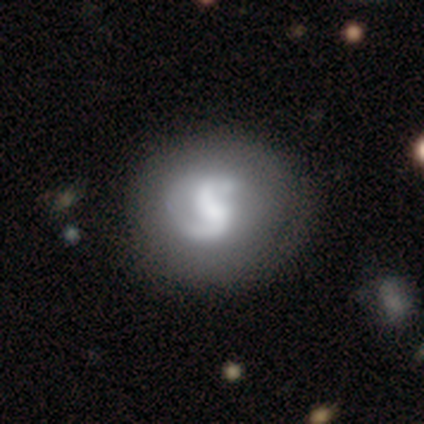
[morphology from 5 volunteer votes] A featured or disk galaxy (80%) with no bar (75%), 2 (75%) tight (75%) spiral arms (100%) and a dominant central bulge (25%, tied with large, moderate and small). Merging: none (40%).